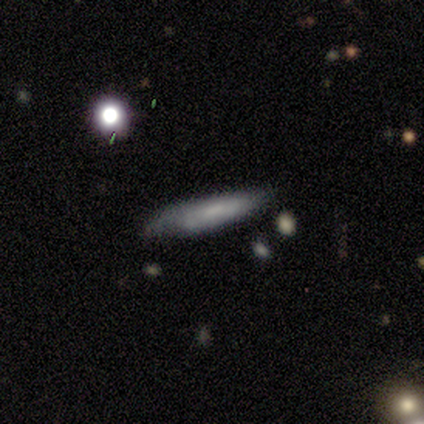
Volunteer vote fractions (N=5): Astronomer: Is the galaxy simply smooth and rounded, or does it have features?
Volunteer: smooth — 80%.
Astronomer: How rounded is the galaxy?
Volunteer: cigar-shaped — 100%.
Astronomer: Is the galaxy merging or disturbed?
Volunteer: minor disturbance — 100%.